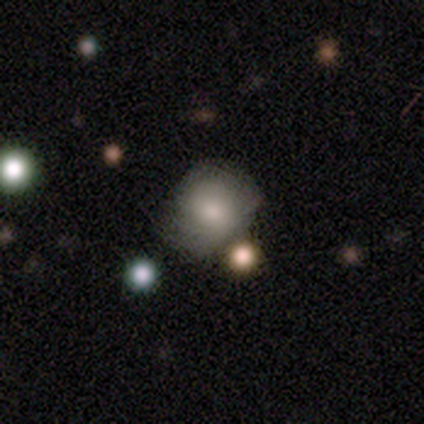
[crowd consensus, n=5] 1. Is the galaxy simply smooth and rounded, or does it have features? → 40% smooth (tied), 40% featured or disk (tied), 20% star or artifact.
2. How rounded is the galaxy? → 100% round, 0% in between, 0% cigar-shaped.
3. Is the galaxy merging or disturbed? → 75% minor disturbance, 25% merger, 0% none, 0% major disturbance.